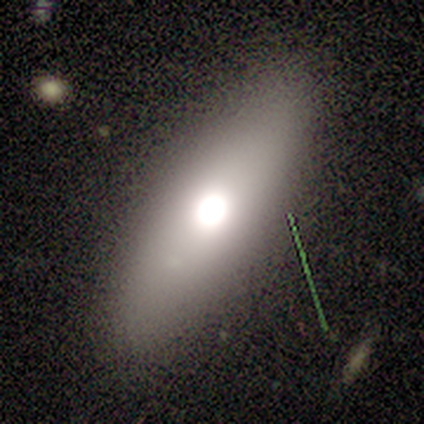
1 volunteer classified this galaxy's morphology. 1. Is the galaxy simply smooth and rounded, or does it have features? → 100% smooth, 0% featured or disk, 0% star or artifact.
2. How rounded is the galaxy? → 100% in between, 0% round, 0% cigar-shaped.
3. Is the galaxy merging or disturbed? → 100% minor disturbance, 0% none, 0% major disturbance, 0% merger.